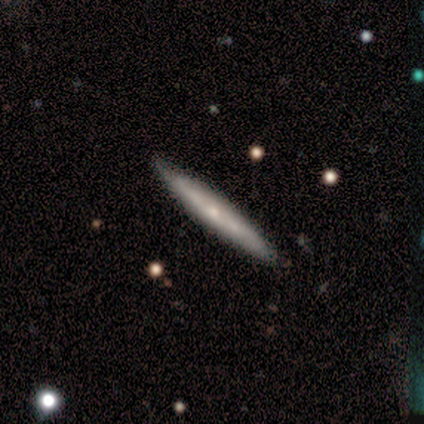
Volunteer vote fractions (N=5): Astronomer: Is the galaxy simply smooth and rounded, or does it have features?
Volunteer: featured or disk — 60% (runner-up: smooth, 40%).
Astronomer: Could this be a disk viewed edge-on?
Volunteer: yes — 100%.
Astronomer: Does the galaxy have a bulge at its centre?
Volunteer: rounded — 67%.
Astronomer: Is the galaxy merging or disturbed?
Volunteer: none — 60% (runner-up: minor disturbance, 40%).